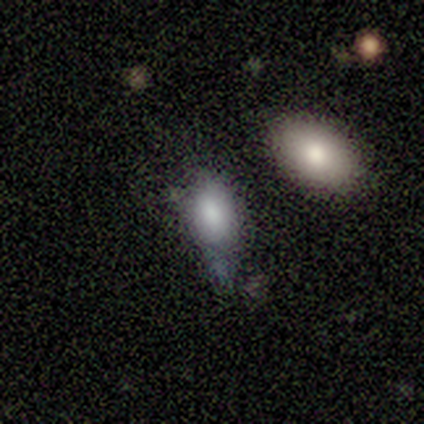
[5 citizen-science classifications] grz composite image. It shows a smooth galaxy with no disk features (80%) that is in between round and cigar-shaped (100%). Merging: none (40%, tied with minor disturbance).